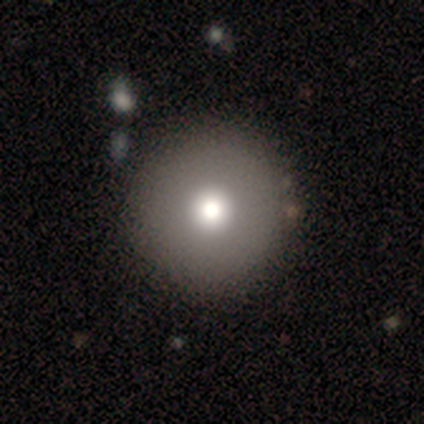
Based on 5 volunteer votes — smooth_or_featured: smooth (p=0.80) [alt: star or artifact p=0.20]
how_rounded: round (p=1.00)
merging: none (p=1.00)